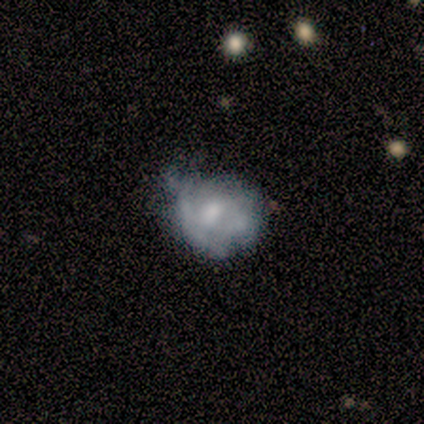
Smooth or featured?
  - featured or disk: 80% *
  - smooth: 20%
  - star or artifact: 0%
Edge-on disk?
  - no: 75% *
  - yes: 25%
Bar?
  - no: 67% *
  - weak: 33%
  - strong: 0%
Spiral arms?
  - no: 100% *
  - yes: 0%
Bulge size?
  - moderate: 67% *
  - small: 33%
  - dominant: 0%
  - large: 0%
  - none: 0%
Merging?
  - none: 60% *
  - minor disturbance: 20%
  - major disturbance: 20%
  - merger: 0%